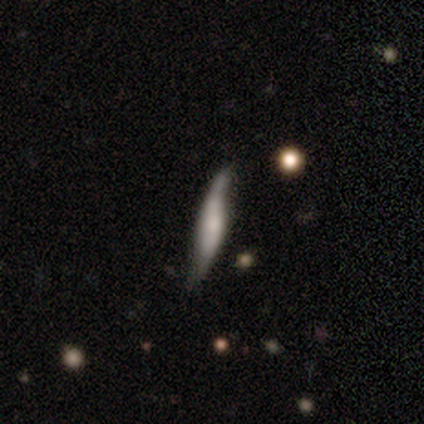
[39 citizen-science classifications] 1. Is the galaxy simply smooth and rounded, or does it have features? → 85% featured or disk, 13% smooth, 3% star or artifact.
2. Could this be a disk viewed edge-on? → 64% yes, 36% no.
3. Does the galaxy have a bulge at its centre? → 43% boxy, 38% rounded, 19% none.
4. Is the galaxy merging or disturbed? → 55% none, 26% minor disturbance, 18% major disturbance, 0% merger.